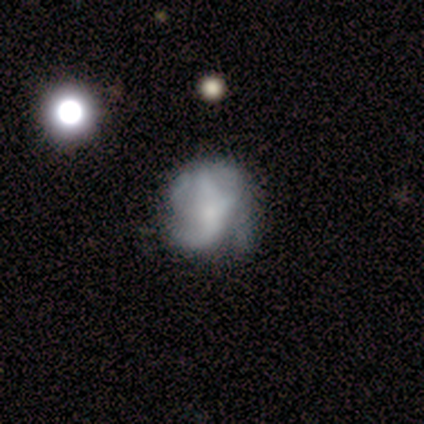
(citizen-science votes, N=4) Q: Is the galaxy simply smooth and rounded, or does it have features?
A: smooth — 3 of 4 (75%).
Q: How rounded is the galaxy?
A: round — 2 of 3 (67%).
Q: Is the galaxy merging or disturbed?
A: major disturbance — 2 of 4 (50%).